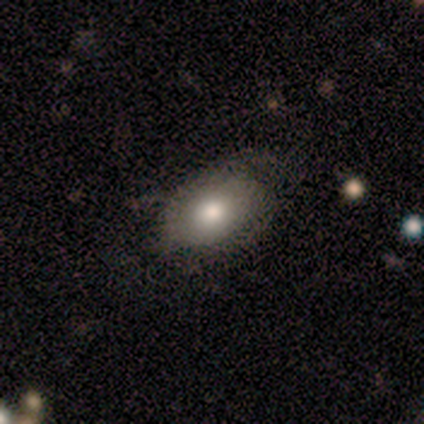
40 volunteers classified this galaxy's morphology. smooth_or_featured: smooth (p=0.70) [alt: featured or disk p=0.20]
how_rounded: in between (p=0.86) [alt: round p=0.14]
merging: none (p=0.58) [alt: minor disturbance p=0.28]